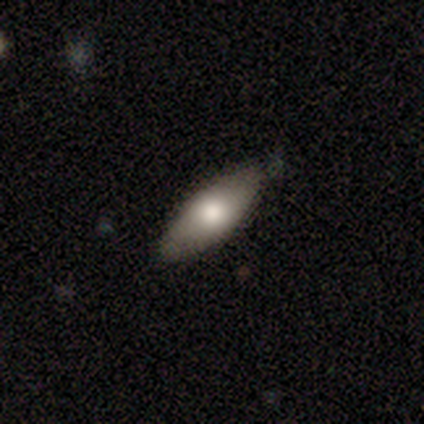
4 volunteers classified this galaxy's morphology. A smooth galaxy with no disk features (100%) that is in between round and cigar-shaped (75%). Merging: none (100%).